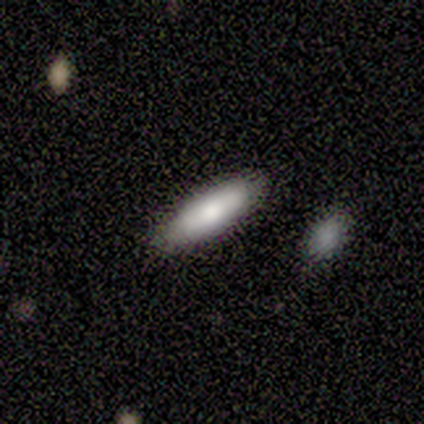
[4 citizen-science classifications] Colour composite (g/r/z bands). It shows a smooth galaxy with no disk features (50%, tied with featured or disk) that is cigar-shaped (100%). Merging: none (100%).